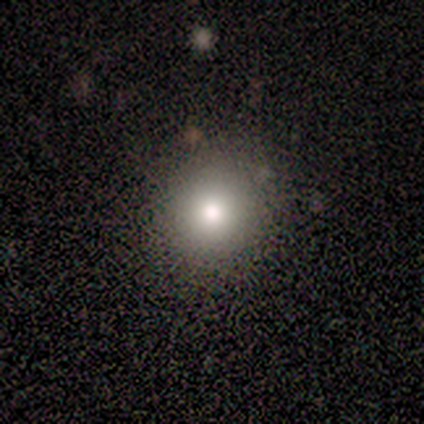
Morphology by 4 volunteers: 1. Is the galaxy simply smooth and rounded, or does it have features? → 100% smooth, 0% featured or disk, 0% star or artifact.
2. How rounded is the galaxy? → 100% round, 0% in between, 0% cigar-shaped.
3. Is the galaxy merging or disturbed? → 100% none, 0% minor disturbance, 0% major disturbance, 0% merger.